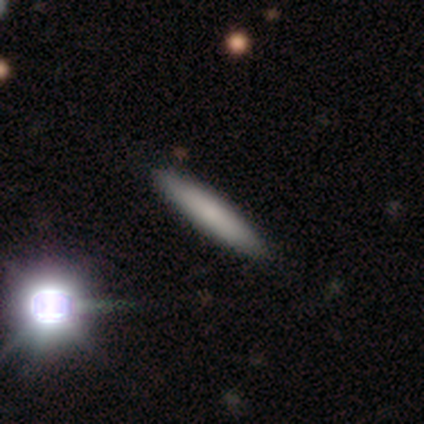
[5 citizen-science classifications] Smooth or featured: smooth — 100%
How rounded: cigar-shaped — 100%
Merging: none — 80% (minor disturbance — 20%)